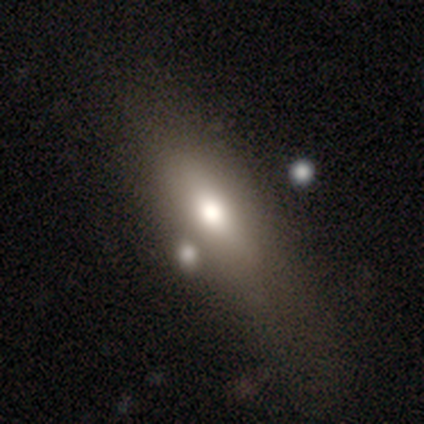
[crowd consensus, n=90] smooth-or-featured: smooth: 70% | featured or disk: 22% | star or artifact: 8%
  how-rounded: in between: 52% | cigar-shaped: 44% | round: 3%
  merging: none: 63% | minor disturbance: 18% | major disturbance: 16% | merger: 4%